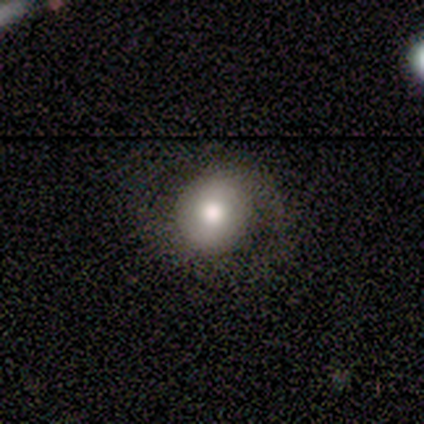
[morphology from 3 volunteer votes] Smooth or featured? smooth (100%)
How rounded? round (100%)
Merging? minor disturbance (67%)